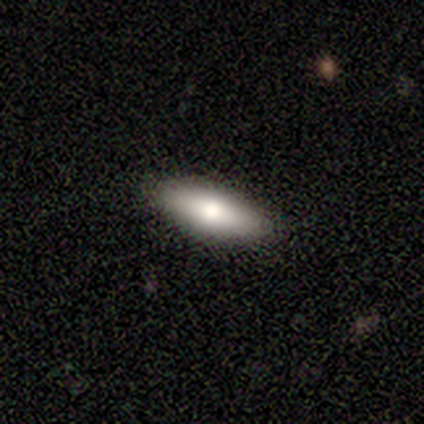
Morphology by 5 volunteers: Volunteers were most divided on "smooth or featured": smooth: 80%, featured or disk: 20%, star or artifact: 0%. More confident: how rounded — in between (100%); merging — none (100%).